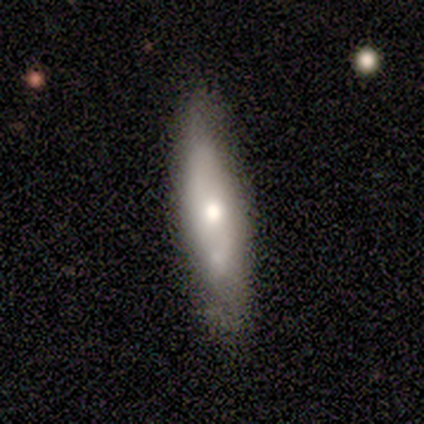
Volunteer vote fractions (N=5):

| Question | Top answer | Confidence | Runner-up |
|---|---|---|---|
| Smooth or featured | featured or disk | 60% | smooth (40%) |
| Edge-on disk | no | 67% | yes (33%) |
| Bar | no | 100% | — |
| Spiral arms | yes | 100% | — |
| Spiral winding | medium | 100% | — |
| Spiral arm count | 2 | 100% | — |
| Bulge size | large | 50% | tied: moderate (50%) |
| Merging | none | 100% | — |